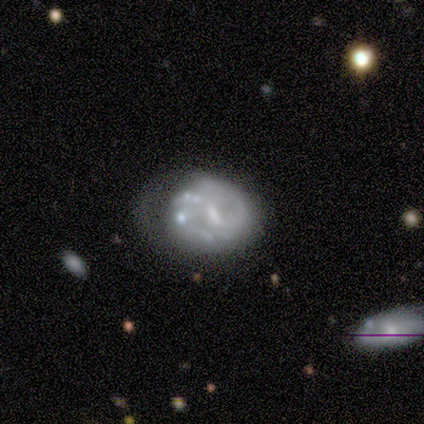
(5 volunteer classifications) This appears to be a featured or disk galaxy (80%) with a weak bar (50%), 2 (100%) tight (50%) spiral arms (100%) and a moderate central bulge (50%). Merging: minor disturbance (40%, tied with major disturbance).